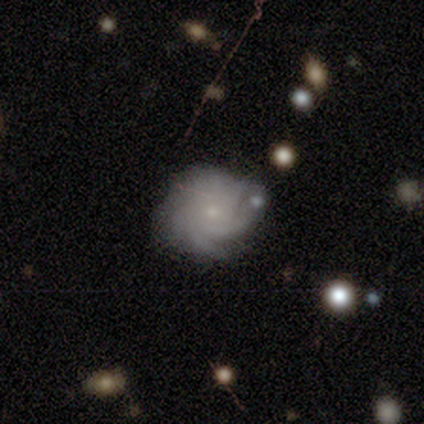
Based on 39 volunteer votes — Morphology: type=featured or disk (87%); edge-on=no (100%); bar=no (91%); spiral arms=yes (94%); winding=tight (56%); arm count=can't tell (41%); bulge=small (82%); merging=none (49%).